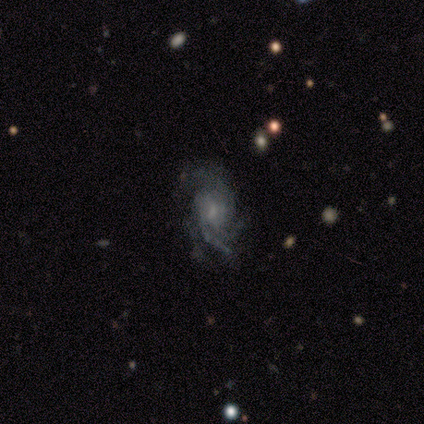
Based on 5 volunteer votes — This is clearly a featured or disk galaxy (100%). It is clearly not viewed edge-on (100%). Bar: likely weak (60%). Spiral arm pattern: clearly yes (80%). Spiral arm count: possibly 4 (50%). Spiral winding: possibly tight (50%, tied with medium). Central bulge: likely moderate (60%). Merging: likely none (60%).